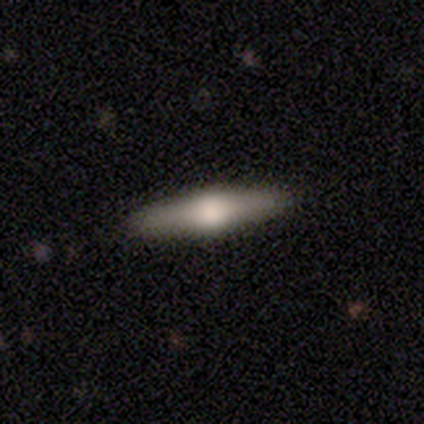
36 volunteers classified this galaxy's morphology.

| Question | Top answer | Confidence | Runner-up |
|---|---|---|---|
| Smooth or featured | featured or disk | 75% | smooth (25%) |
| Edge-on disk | yes | 85% | no (15%) |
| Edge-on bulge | rounded | 100% | — |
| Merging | none | 89% | minor disturbance (8%) |